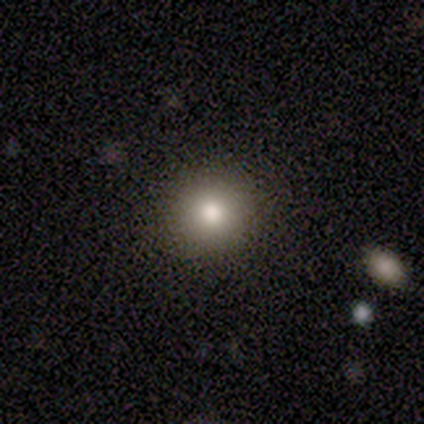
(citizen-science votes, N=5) Q: Smooth or featured?
A: smooth (80%); runner-up: star or artifact (20%)
Q: How rounded?
A: round (100%)
Q: Merging?
A: none (100%)